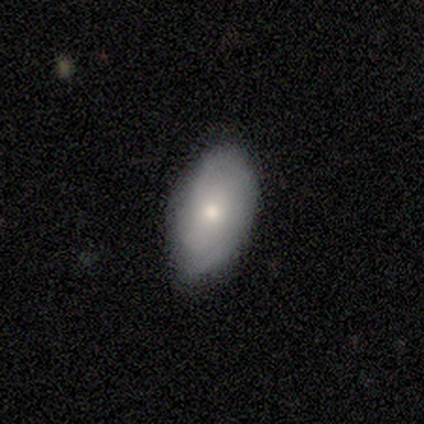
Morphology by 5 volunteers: Smooth or featured: featured or disk — 60% (smooth — 40%)
Edge-on disk: no — 100%
Bar: no — 67% (weak — 33%)
Spiral arms: no — 100%
Bulge size: moderate — 67% (small — 33%)
Merging: none — 80% (minor disturbance — 20%)